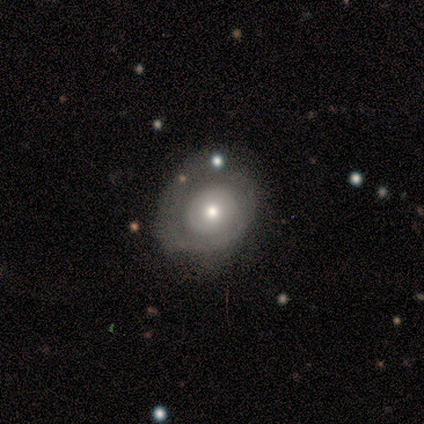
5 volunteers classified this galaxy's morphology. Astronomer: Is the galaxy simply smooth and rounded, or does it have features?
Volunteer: featured or disk — 60% (runner-up: smooth, 40%).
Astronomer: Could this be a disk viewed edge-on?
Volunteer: no — 100%.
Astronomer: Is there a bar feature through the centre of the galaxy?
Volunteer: no — 100%.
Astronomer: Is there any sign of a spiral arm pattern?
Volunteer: no — 100%.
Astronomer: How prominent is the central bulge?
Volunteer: large — 33%, tied with moderate and small at 33%.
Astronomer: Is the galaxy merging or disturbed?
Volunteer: minor disturbance — 60%.